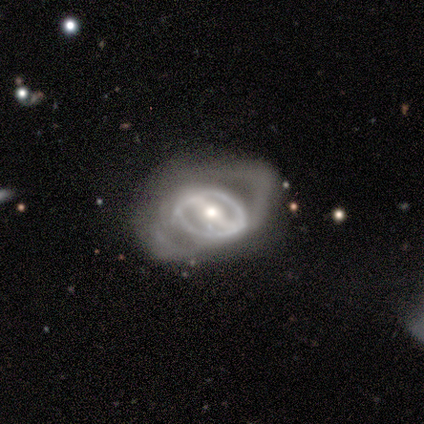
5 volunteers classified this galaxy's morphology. Q: Smooth or featured?
A: featured or disk (80%); runner-up: smooth (20%)
Q: Edge-on disk?
A: yes (50%); tied with: no (50%)
Q: Edge-on bulge?
A: rounded (100%)
Q: Merging?
A: major disturbance (100%)